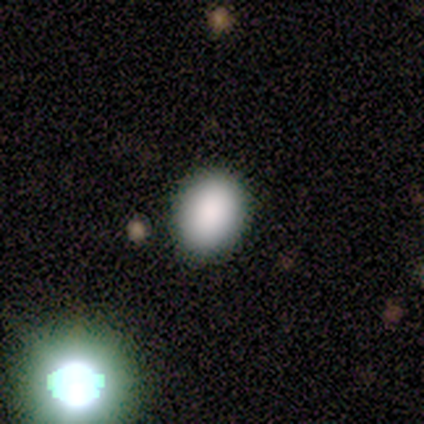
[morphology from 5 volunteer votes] Smooth or featured?
  - smooth: 100% *
  - featured or disk: 0%
  - star or artifact: 0%
How rounded?
  - in between: 100% *
  - round: 0%
  - cigar-shaped: 0%
Merging?
  - none: 100% *
  - minor disturbance: 0%
  - major disturbance: 0%
  - merger: 0%